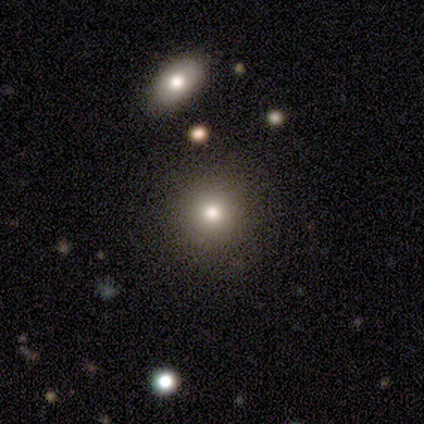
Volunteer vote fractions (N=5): smooth-or-featured: smooth: 60% | star or artifact: 40% | featured or disk: 0%
  how-rounded: round: 67% | in between: 33% | cigar-shaped: 0%
  merging: none: 100% | minor disturbance: 0% | major disturbance: 0% | merger: 0%